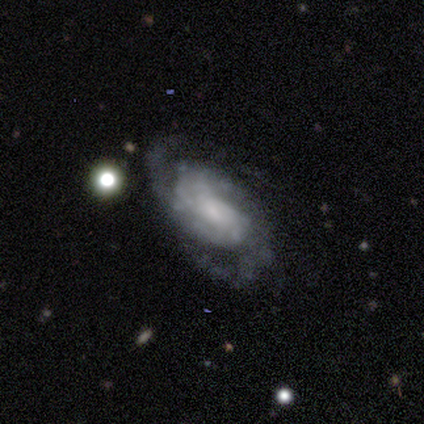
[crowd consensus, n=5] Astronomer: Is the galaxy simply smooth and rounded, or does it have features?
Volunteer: featured or disk — 60% (runner-up: smooth, 40%).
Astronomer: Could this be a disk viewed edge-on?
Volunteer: no — 100%.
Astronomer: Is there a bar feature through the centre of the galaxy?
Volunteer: weak — 67%.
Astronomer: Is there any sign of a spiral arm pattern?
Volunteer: yes — 100%.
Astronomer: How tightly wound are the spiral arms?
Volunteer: medium — 67%.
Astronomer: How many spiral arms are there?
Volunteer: can't tell — 67%.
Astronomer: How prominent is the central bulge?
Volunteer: none — 67%.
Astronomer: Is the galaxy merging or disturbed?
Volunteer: none — 60% (runner-up: minor disturbance, 40%).